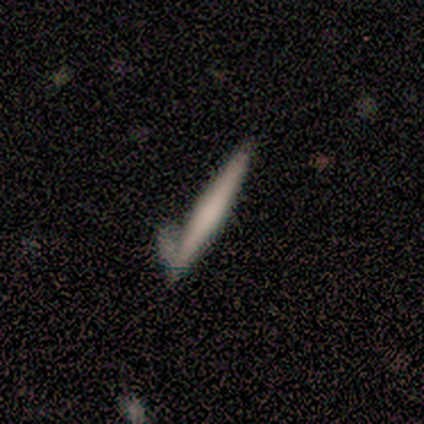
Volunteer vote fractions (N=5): Smooth or featured? featured or disk (60%)
Edge-on disk? yes (100%)
Edge-on bulge? boxy (33%, tied with none and rounded)
Merging? none (60%)